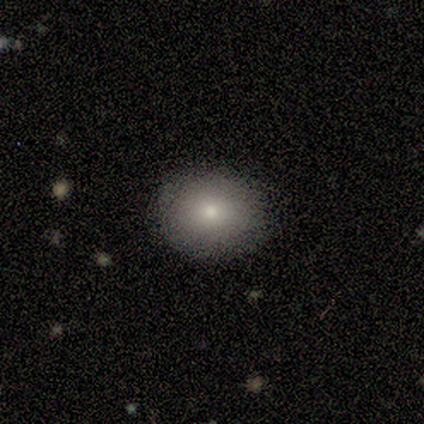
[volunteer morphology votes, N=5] Smooth or featured? smooth (100%)
How rounded? round (60%)
Merging? none (80%)